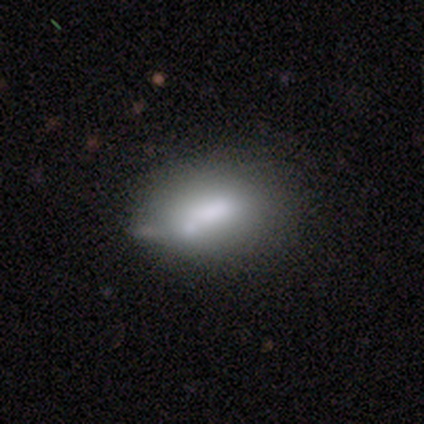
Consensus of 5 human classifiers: Volunteers were most divided on "merging": merger: 50%, none: 25%, minor disturbance: 25%, major disturbance: 0%. More confident: how rounded — in between (100%); smooth or featured — smooth (60%).